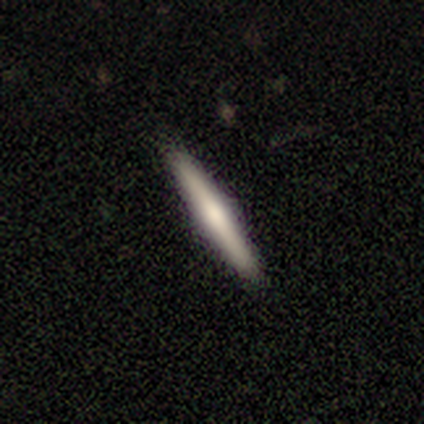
A smooth galaxy with no disk features (100%) that is cigar-shaped (100%).

Vote fractions:
- Smooth or featured? smooth: 100% / featured or disk: 0% / star or artifact: 0%
- How rounded? cigar-shaped: 100% / round: 0% / in between: 0%
- Merging? none: 100% / minor disturbance: 0% / major disturbance: 0% / merger: 0%